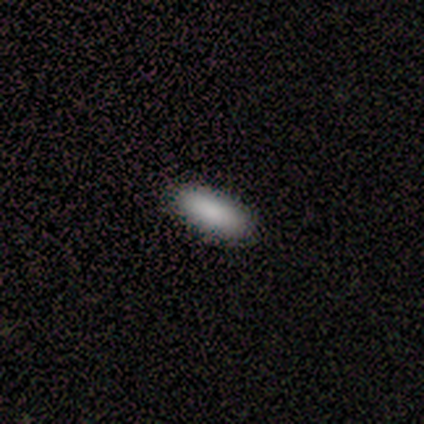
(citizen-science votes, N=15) This appears to be a smooth galaxy with no disk features (93%) that is in between round and cigar-shaped (86%). Merging: none (93%).